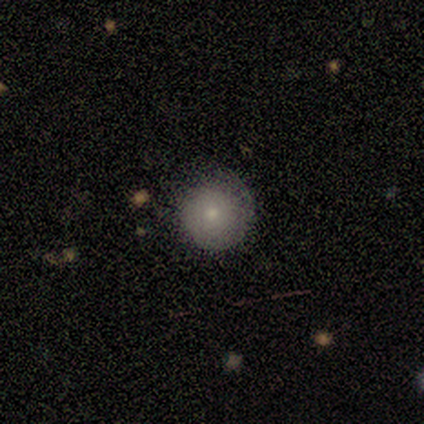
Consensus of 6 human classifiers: A smooth galaxy with no disk features (67%) that is round (100%).

Vote fractions:
- Smooth or featured? smooth: 67% / featured or disk: 33% / star or artifact: 0%
- How rounded? round: 100% / in between: 0% / cigar-shaped: 0%
- Merging? none: 50% (tied) / minor disturbance: 50% (tied) / major disturbance: 0% / merger: 0%